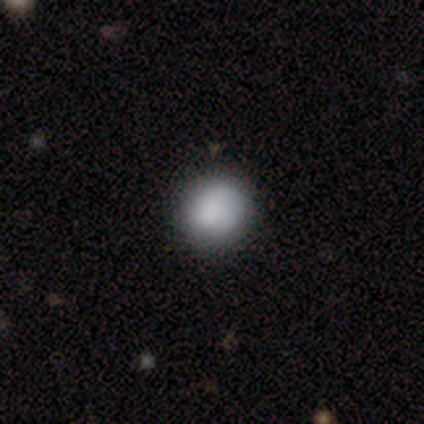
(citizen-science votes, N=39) smooth 85%, featured or disk 13%, star or artifact 3%. Down the decision tree: how rounded — round (91%); merging — none (63%).